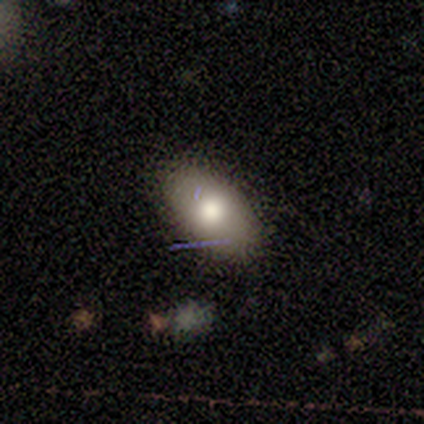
Smooth or featured? 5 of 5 (100%) said smooth. How rounded? 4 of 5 (80%) said in between. Merging? 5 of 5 (100%) said none.